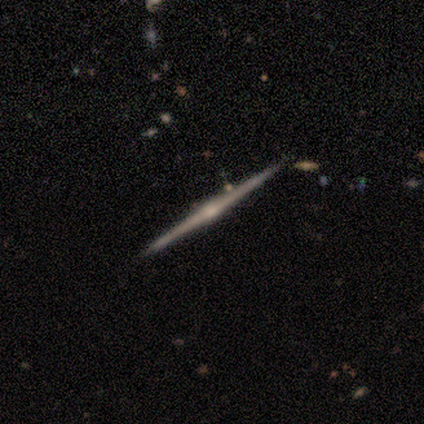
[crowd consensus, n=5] A featured or disk galaxy (100%) viewed edge-on (100%) with a rounded central bulge (80%).

Vote fractions:
- Smooth or featured? featured or disk: 100% / smooth: 0% / star or artifact: 0%
- Edge-on disk? yes: 100% / no: 0%
- Edge-on bulge? rounded: 80% / none: 20% / boxy: 0%
- Merging? none: 100% / minor disturbance: 0% / major disturbance: 0% / merger: 0%